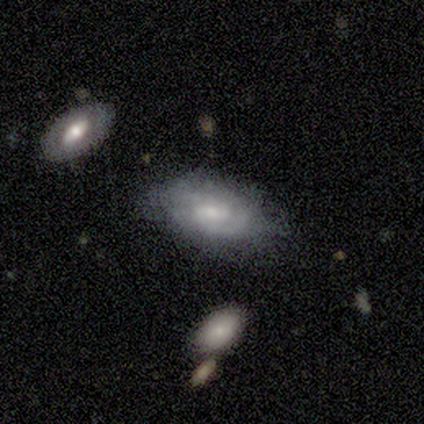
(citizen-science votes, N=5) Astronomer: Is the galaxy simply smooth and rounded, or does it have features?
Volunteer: featured or disk — 60% (runner-up: smooth, 40%).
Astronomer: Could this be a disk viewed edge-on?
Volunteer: no — 100%.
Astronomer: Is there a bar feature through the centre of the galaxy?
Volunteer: weak — 67%.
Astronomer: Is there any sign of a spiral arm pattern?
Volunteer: yes — 67%.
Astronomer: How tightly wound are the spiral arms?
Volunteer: tight — 50%, tied with medium at 50%.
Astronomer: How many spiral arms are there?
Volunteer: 2 — 50%, tied with 3 at 50%.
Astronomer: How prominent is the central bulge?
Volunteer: small — 100%.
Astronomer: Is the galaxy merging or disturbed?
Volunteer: minor disturbance — 80%.